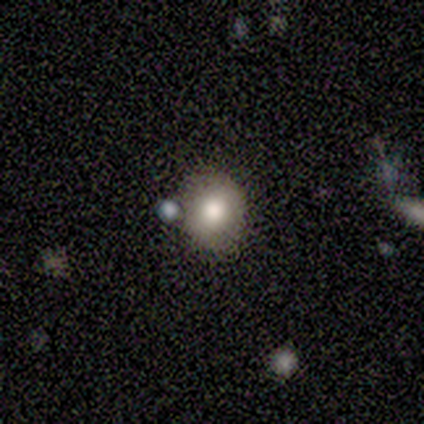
Smooth or featured? 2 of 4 (50%, tied with featured or disk) said smooth. How rounded? 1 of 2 (50%, tied with in between) said round. Merging? 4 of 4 (100%) said none.